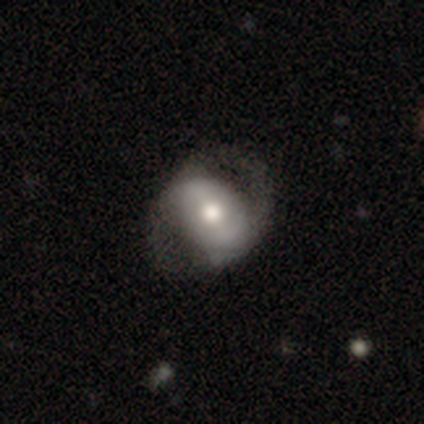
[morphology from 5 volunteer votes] smooth 60%, featured or disk 40%, star or artifact 0%. Down the decision tree: how rounded — round (100%); merging — none (100%).